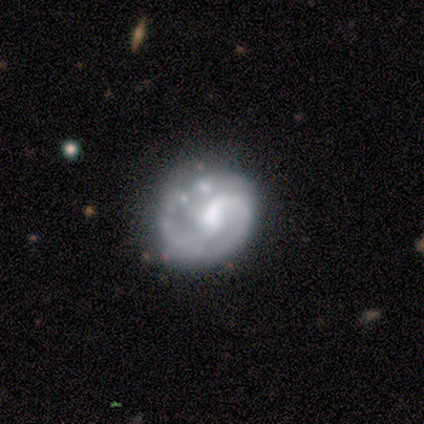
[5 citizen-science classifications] Smooth or featured? featured or disk (80%)
Edge-on disk? no (100%)
Bar? no (50%)
Spiral arms? yes (100%)
Spiral winding? tight (50%, tied with medium)
Spiral arm count? 1 (25%, tied with 2, 3 and can't tell)
Bulge size? moderate (75%)
Merging? none (60%)